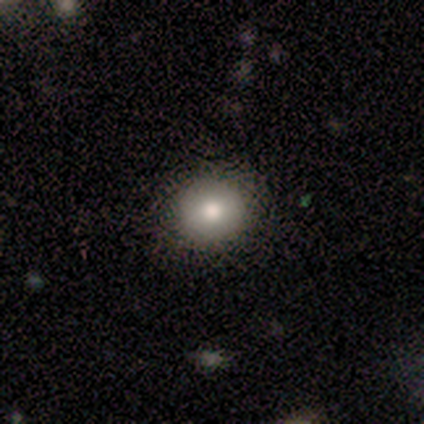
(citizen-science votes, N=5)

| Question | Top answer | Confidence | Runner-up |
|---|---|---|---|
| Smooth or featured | smooth | 80% | star or artifact (20%) |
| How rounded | round | 100% | — |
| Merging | none | 100% | — |